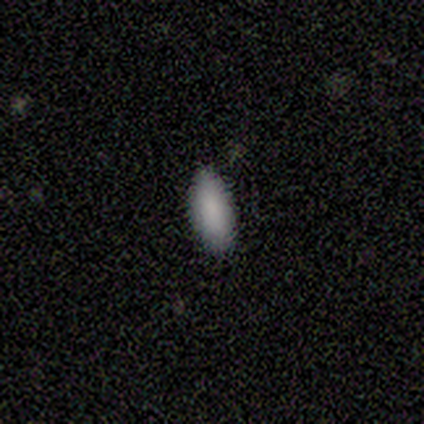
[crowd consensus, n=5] A smooth galaxy with no disk features (100%) that is in between round and cigar-shaped (60%).

Vote fractions:
- Smooth or featured? smooth: 100% / featured or disk: 0% / star or artifact: 0%
- How rounded? in between: 60% / cigar-shaped: 40% / round: 0%
- Merging? none: 80% / minor disturbance: 20% / major disturbance: 0% / merger: 0%